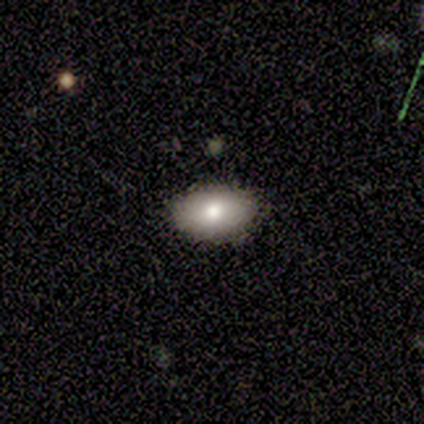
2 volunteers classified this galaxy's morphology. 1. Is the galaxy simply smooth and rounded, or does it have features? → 100% smooth, 0% featured or disk, 0% star or artifact.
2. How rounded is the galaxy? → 100% in between, 0% round, 0% cigar-shaped.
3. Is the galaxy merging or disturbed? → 100% none, 0% minor disturbance, 0% major disturbance, 0% merger.